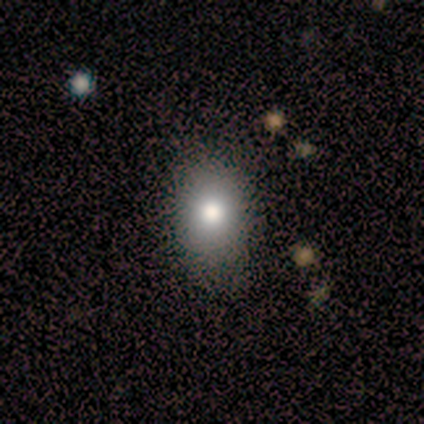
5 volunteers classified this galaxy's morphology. Q: Smooth or featured?
A: smooth (80%); runner-up: featured or disk (20%)
Q: How rounded?
A: in between (75%); runner-up: round (25%)
Q: Merging?
A: none (80%); runner-up: minor disturbance (20%)